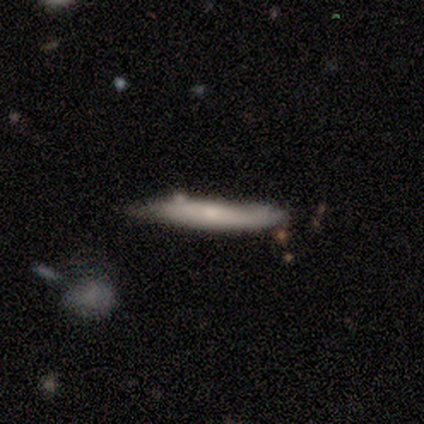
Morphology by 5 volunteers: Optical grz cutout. It shows a featured or disk galaxy (40%, tied with star or artifact) viewed edge-on (50%, tied with no) with no central bulge (100%). Merging: none (67%).